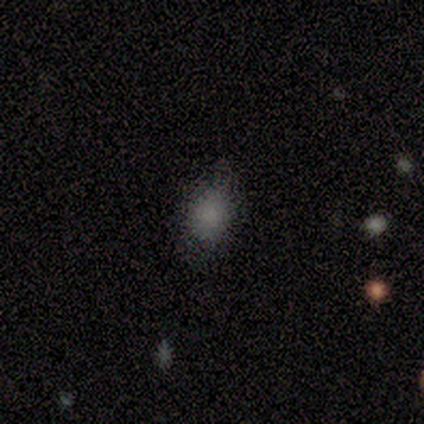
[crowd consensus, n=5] smooth 80%, featured or disk 20%, star or artifact 0%. Down the decision tree: how rounded — in between (75%); merging — none (100%).